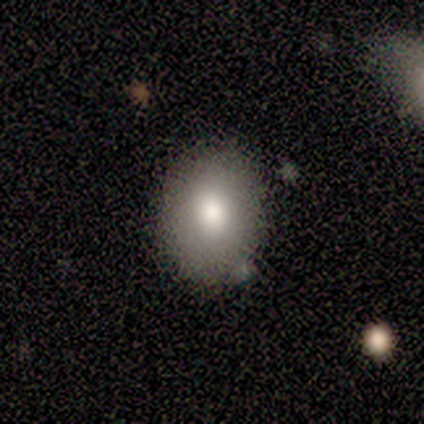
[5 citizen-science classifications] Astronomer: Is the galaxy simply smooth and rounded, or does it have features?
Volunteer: smooth — 40%, tied with featured or disk at 40%.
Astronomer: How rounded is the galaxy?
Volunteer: round — 50%, tied with in between at 50%.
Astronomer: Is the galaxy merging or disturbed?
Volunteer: minor disturbance — 75%.